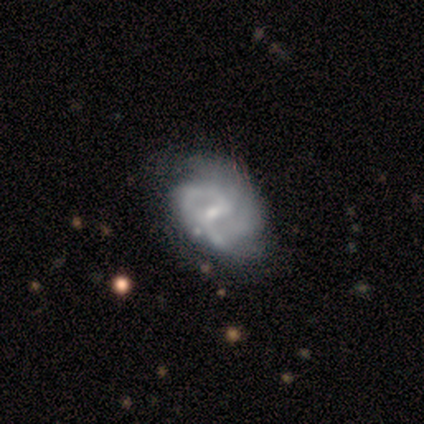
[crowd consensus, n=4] smooth_or_featured: featured or disk (p=1.00)
disk_edge_on: no (p=1.00)
bar: strong (p=0.50) [alt: weak p=0.25]
has_spiral_arms: yes (p=1.00)
spiral_winding: medium (p=0.75) [alt: tight p=0.25]
spiral_arm_count: 2 (p=0.75) [alt: can't tell p=0.25]
bulge_size: small (p=1.00)
merging: minor disturbance (p=0.75) [alt: none p=0.25]